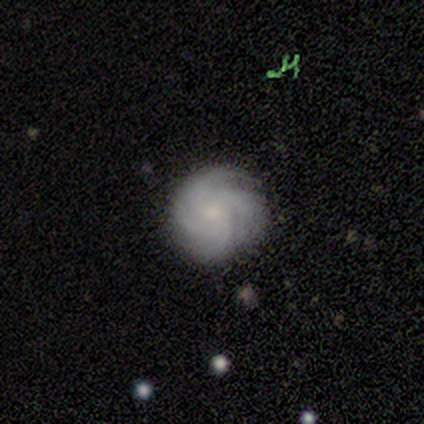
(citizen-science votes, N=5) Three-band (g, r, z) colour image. It shows a featured or disk galaxy (80%) with no bar (75%), 3 (50%) tight (100%) spiral arms (100%) and a small central bulge (75%). Merging: none (50%).